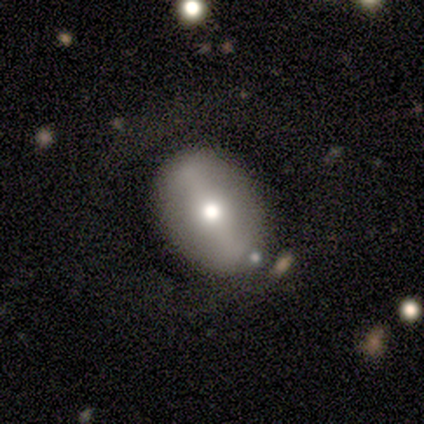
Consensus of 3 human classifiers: Overall: featured or disk (100%). Edge-on disk: yes (67%; no 33%). Edge-on bulge: rounded (100%). Merging: none (100%).